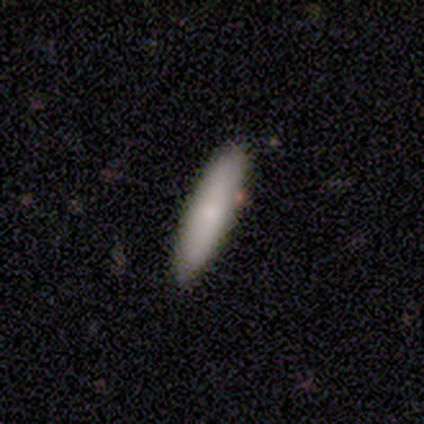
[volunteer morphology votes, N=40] Smooth or featured? 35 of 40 (88%) said smooth. How rounded? 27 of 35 (77%) said cigar-shaped. Merging? 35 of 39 (90%) said none.